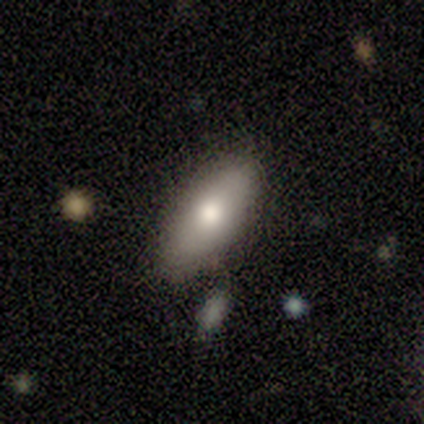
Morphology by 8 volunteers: Volunteers were most divided on "smooth or featured": smooth: 88%, featured or disk: 12%, star or artifact: 0%. More confident: how rounded — in between (100%); merging — none (100%).